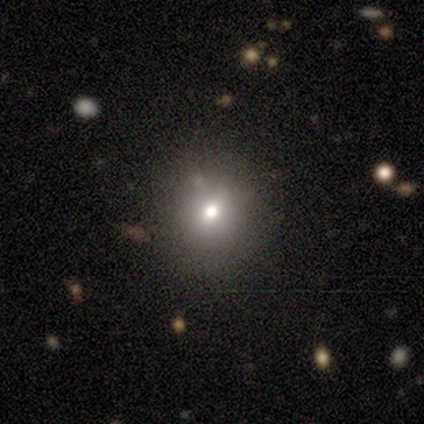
Volunteers were most divided on "smooth or featured" (2-way tie): smooth: 40%, star or artifact: 40%, featured or disk: 20%. More confident: how rounded — round (100%); merging — none (100%).